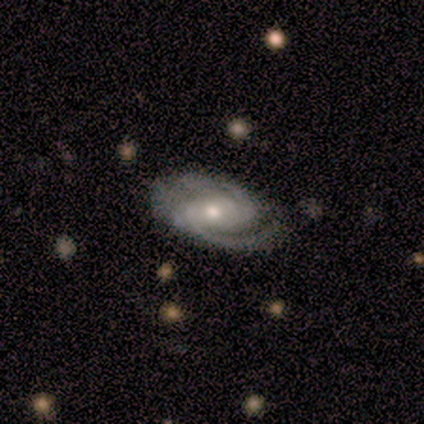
smooth_or_featured: featured or disk (p=1.00)
disk_edge_on: no (p=1.00)
bar: weak (p=0.50) [alt: strong p=0.25]
has_spiral_arms: yes (p=1.00)
spiral_winding: medium (p=0.75) [alt: tight p=0.25]
spiral_arm_count: 2 (p=1.00)
bulge_size: small (p=0.50) [alt: large p=0.25]
merging: none (p=0.75) [alt: minor disturbance p=0.25]